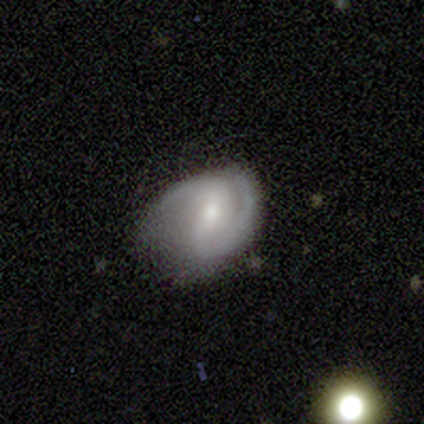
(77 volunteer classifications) Smooth or featured? 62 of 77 (81%) said featured or disk. Edge-on disk? 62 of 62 (100%) said no. Bar? 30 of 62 (48%) said weak. Spiral arms? 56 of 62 (90%) said yes. Spiral winding? 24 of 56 (43%) said medium. Spiral arm count? 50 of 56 (89%) said 2. Bulge size? 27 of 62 (44%) said small. Merging? 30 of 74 (41%) said none.